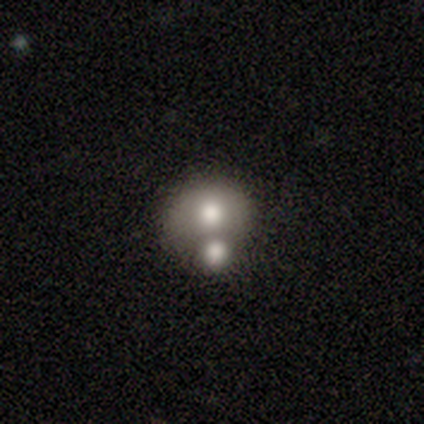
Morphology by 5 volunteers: A smooth galaxy with no disk features (60%) that is in between round and cigar-shaped (67%).

Vote fractions:
- Smooth or featured? smooth: 60% / featured or disk: 20% / star or artifact: 20%
- How rounded? in between: 67% / round: 33% / cigar-shaped: 0%
- Merging? none: 50% (tied) / merger: 50% (tied) / minor disturbance: 0% / major disturbance: 0%